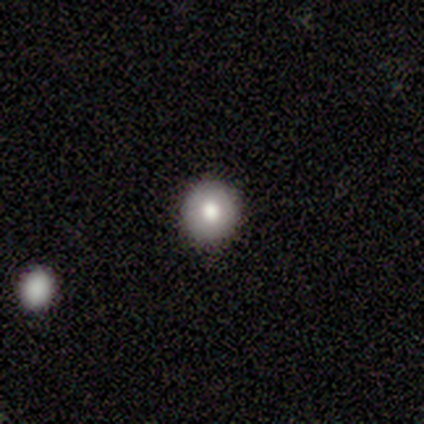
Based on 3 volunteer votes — Morphology: type=smooth (67%); roundness=round (100%); merging=none (100%).